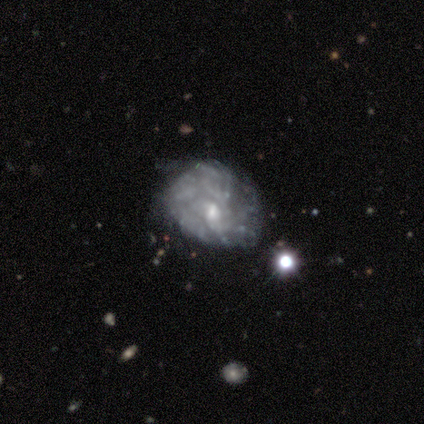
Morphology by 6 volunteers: Volunteers were most divided on "bulge size": small: 60%, moderate: 40%, dominant: 0%, large: 0%, none: 0%. More confident: edge-on disk — no (100%); smooth or featured — featured or disk (83%); bar — no (80%); spiral arms — no (80%); merging — minor disturbance (60%).